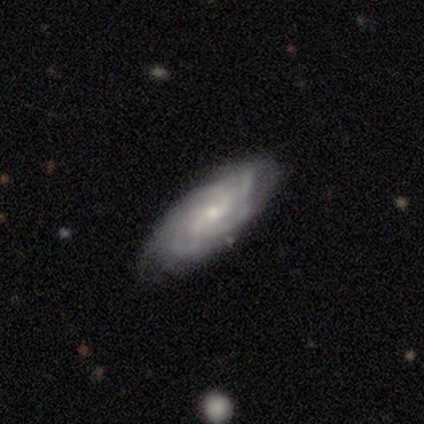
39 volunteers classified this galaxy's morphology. A featured or disk galaxy (72%) with a weak bar (69%), 4 (39%) medium (52%) spiral arms (88%) and a small central bulge (77%). Merging: none (63%).